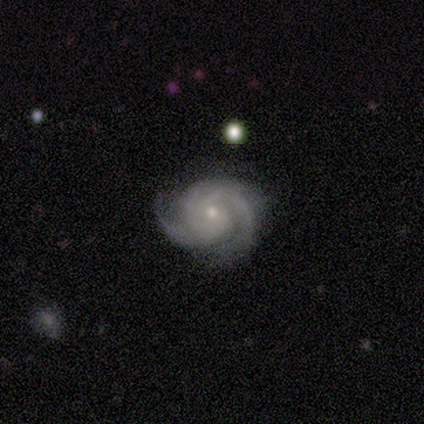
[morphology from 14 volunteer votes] A featured or disk galaxy (93%) with no bar (92%), 2 (54%) tight (69%) spiral arms (100%) and a small central bulge (85%). Merging: none (100%).